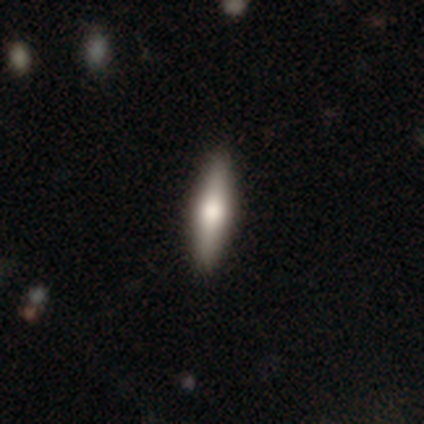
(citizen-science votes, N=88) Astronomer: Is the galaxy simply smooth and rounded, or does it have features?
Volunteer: smooth — 49% (runner-up: featured or disk, 45%).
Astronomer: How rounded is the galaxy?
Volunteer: cigar-shaped — 86%.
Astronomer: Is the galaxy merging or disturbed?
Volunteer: none — 89%.